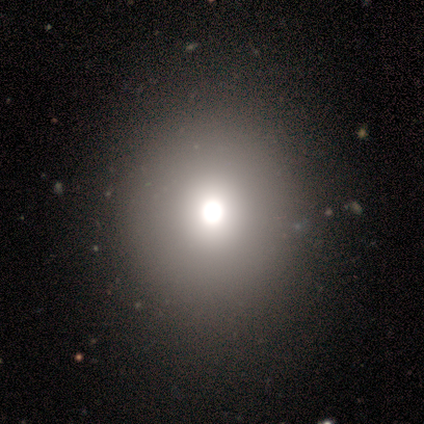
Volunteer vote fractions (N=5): smooth-or-featured: smooth: 60% | featured or disk: 20% | star or artifact: 20%
  how-rounded: round: 67% | in between: 33% | cigar-shaped: 0%
  merging: major disturbance: 50% | none: 25% | minor disturbance: 25% | merger: 0%